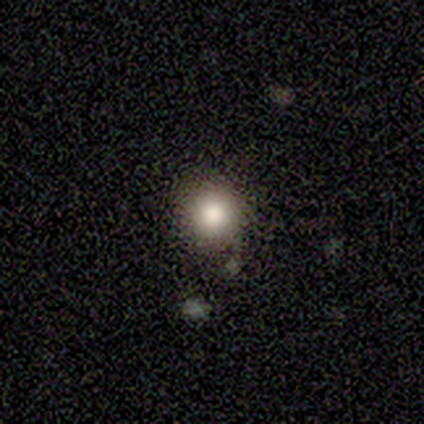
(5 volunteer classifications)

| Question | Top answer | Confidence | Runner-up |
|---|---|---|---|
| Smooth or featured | star or artifact | 60% | smooth (40%) |